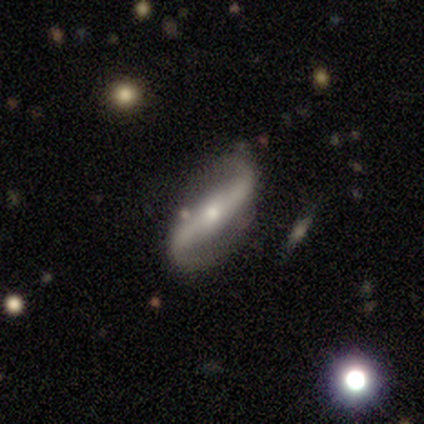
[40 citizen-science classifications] Morphology: type=featured or disk (80%); edge-on=no (78%); bar=strong (52%); spiral arms=yes (96%); winding=loose (79%); arm count=2 (96%); bulge=small (72%); merging=none (76%).